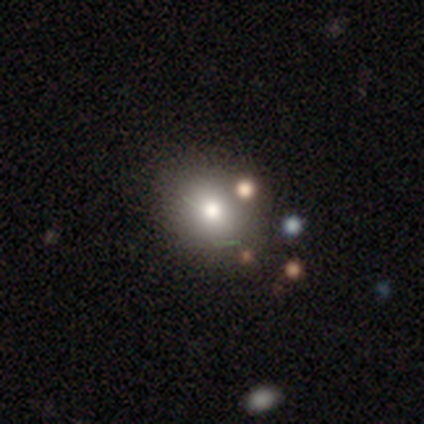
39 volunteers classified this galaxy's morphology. A smooth galaxy with no disk features (67%) that is round (77%).

Vote fractions:
- Smooth or featured? smooth: 67% / featured or disk: 21% / star or artifact: 13%
- How rounded? round: 77% / in between: 23% / cigar-shaped: 0%
- Merging? none: 50% / minor disturbance: 15% / merger: 9% / major disturbance: 0%